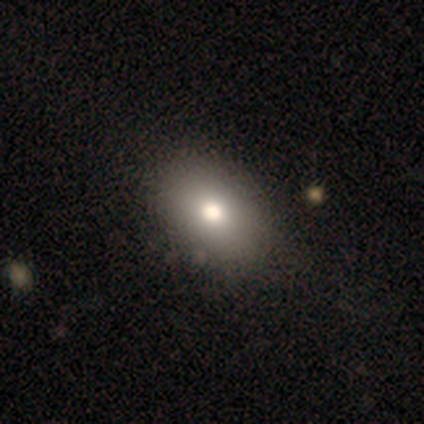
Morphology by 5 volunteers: Smooth or featured? smooth (80%)
How rounded? in between (100%)
Merging? none (80%)